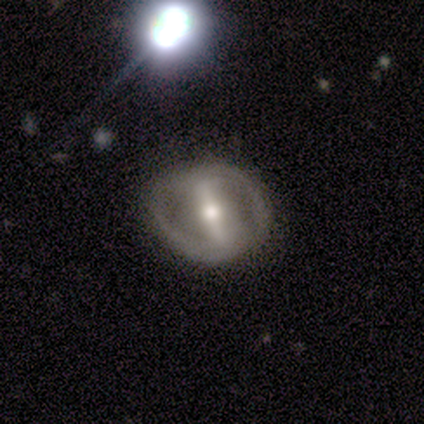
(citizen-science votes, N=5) smooth_or_featured: smooth (p=0.60) [alt: featured or disk p=0.40]
how_rounded: in between (p=0.67) [alt: round p=0.33]
merging: none (p=0.60) [alt: minor disturbance p=0.40]